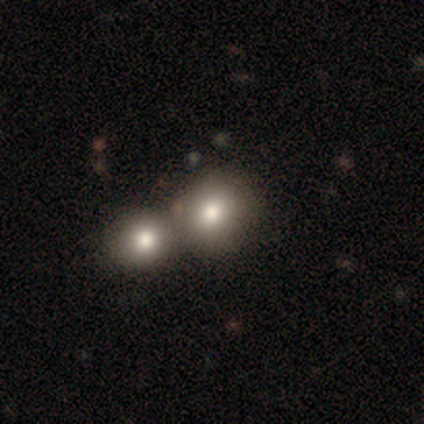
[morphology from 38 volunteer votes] smooth_or_featured: smooth (p=0.87) [alt: featured or disk p=0.11]
how_rounded: round (p=0.85) [alt: in between p=0.15]
merging: merger (p=0.62) [alt: none p=0.19]